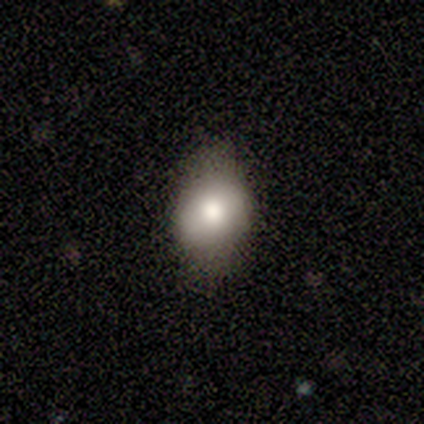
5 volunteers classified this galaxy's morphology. Smooth or featured? smooth (60%)
How rounded? in between (100%)
Merging? major disturbance (50%)